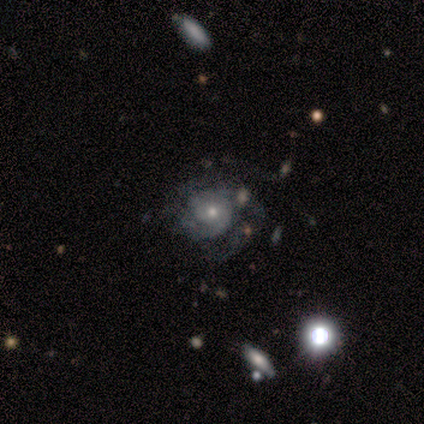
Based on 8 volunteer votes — Smooth or featured?
  - featured or disk: 62% *
  - star or artifact: 25%
  - smooth: 12%
Edge-on disk?
  - no: 100% *
  - yes: 0%
Bar?
  - no: 100% *
  - strong: 0%
  - weak: 0%
Spiral arms?
  - yes: 100% *
  - no: 0%
Spiral winding?
  - medium: 60% *
  - tight: 40%
  - loose: 0%
Spiral arm count?
  - 2: 60% *
  - 4: 20%
  - can't tell: 20%
  - 1: 0%
  - 3: 0%
  - more than 4: 0%
Bulge size?
  - small: 60% *
  - moderate: 40%
  - dominant: 0%
  - large: 0%
  - none: 0%
Merging?
  - none: 50% *
  - minor disturbance: 33%
  - merger: 17%
  - major disturbance: 0%